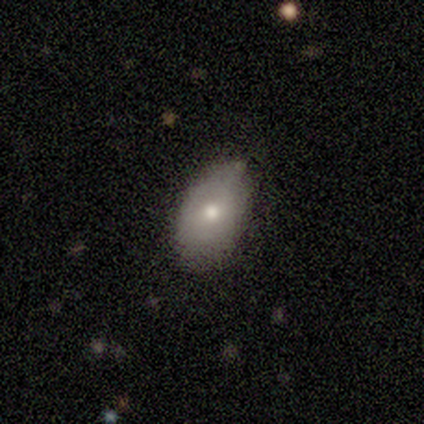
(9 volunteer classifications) smooth_or_featured: smooth (p=0.56) [alt: featured or disk p=0.44]
how_rounded: in between (p=0.80) [alt: round p=0.20]
merging: none (p=0.67) [alt: minor disturbance p=0.22]